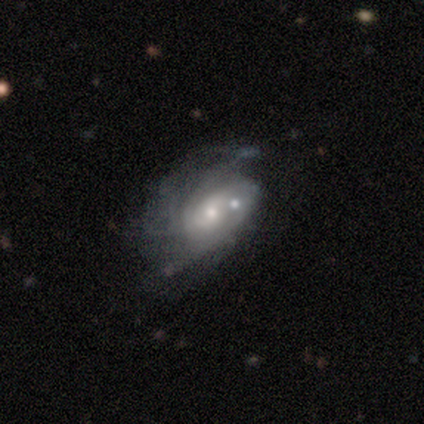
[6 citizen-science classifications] Q: Smooth or featured?
A: featured or disk (83%); runner-up: star or artifact (17%)
Q: Edge-on disk?
A: no (100%)
Q: Bar?
A: no (80%); runner-up: weak (20%)
Q: Spiral arms?
A: yes (80%); runner-up: no (20%)
Q: Spiral winding?
A: medium (100%)
Q: Spiral arm count?
A: 2 (75%); runner-up: 4 (25%)
Q: Bulge size?
A: small (80%); runner-up: moderate (20%)
Q: Merging?
A: none (40%); tied with: minor disturbance (40%)